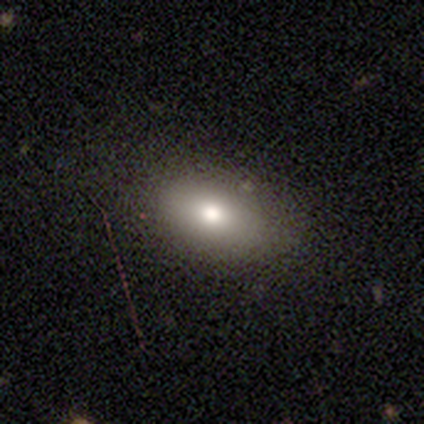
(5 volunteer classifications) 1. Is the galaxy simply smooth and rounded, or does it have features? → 80% smooth, 20% featured or disk, 0% star or artifact.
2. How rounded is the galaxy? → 100% in between, 0% round, 0% cigar-shaped.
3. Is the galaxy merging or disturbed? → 60% none, 40% minor disturbance, 0% major disturbance, 0% merger.